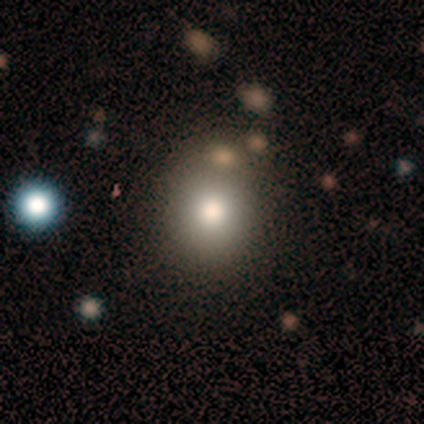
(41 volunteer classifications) smooth 80%, featured or disk 10%, star or artifact 10%. Down the decision tree: how rounded — round (76%); merging — none (78%).